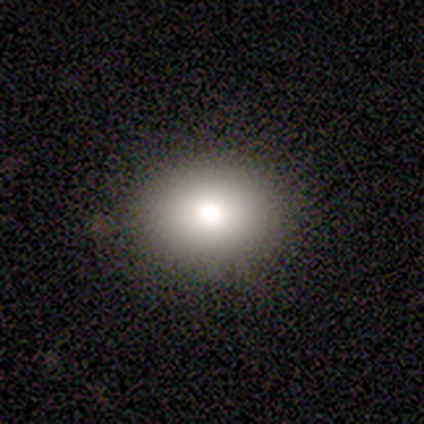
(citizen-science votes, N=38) Smooth or featured: smooth — 92% (featured or disk — 5%)
How rounded: in between — 51% (round — 49%)
Merging: none — 95% (minor disturbance — 5%)